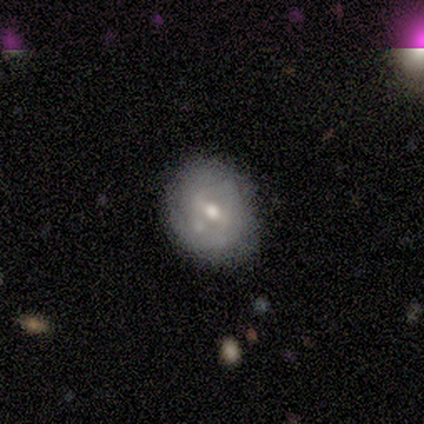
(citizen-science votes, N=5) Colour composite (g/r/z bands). It shows a featured or disk galaxy (60%) with a strong bar (33%, tied with weak and no), no spiral arms (100%) and a small central bulge (67%). Merging: none (50%).